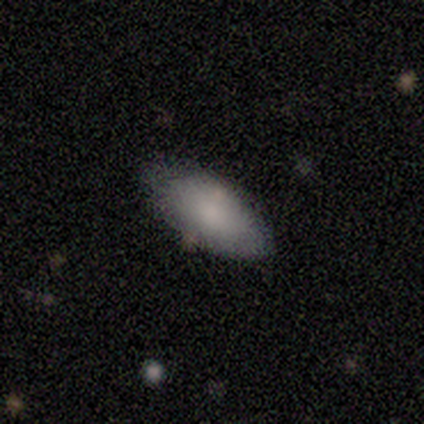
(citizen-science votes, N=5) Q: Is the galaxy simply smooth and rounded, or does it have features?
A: smooth — 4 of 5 (80%).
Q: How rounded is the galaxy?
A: in between — 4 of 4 (100%).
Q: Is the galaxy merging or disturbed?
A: none — 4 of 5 (80%).